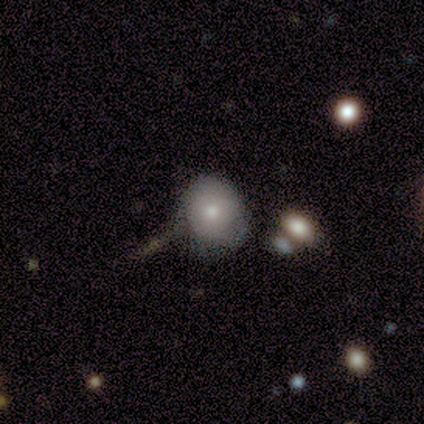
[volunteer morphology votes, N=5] Smooth or featured? 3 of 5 (60%) said smooth. How rounded? 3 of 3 (100%) said round. Merging? 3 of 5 (60%) said none.